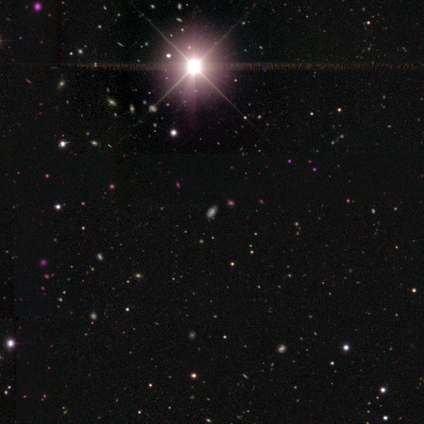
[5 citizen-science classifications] Morphology: type=star or artifact (60%).